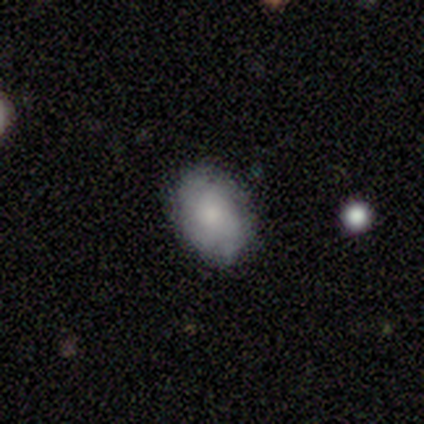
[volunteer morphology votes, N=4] smooth_or_featured: smooth (p=0.50) [tied with: featured or disk p=0.50]
how_rounded: in between (p=1.00)
merging: none (p=1.00)